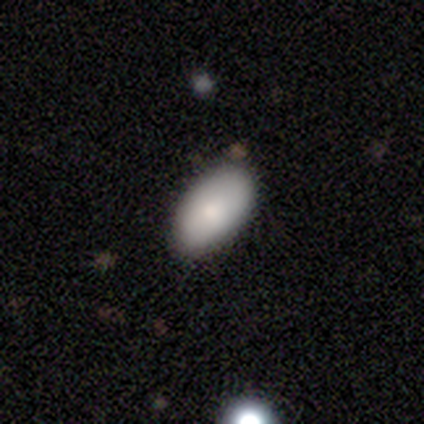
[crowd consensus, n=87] smooth 83%, featured or disk 9%, star or artifact 8%. Down the decision tree: how rounded — in between (94%); merging — none (89%).